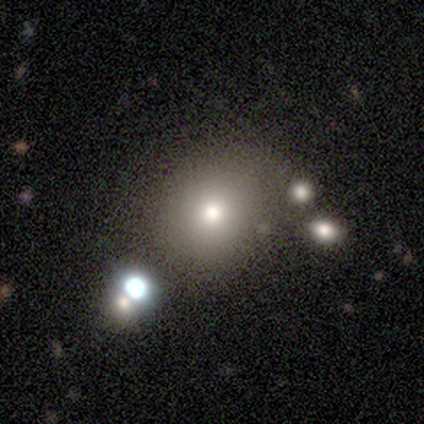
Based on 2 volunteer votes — A smooth galaxy with no disk features (100%) that is round (100%). Merging: none (50%, tied with minor disturbance).